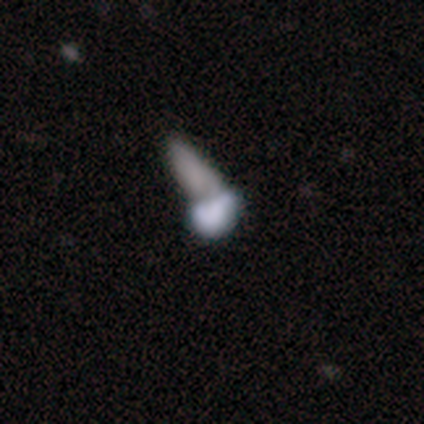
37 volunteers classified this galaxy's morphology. smooth-or-featured: smooth: 51% | featured or disk: 38% | star or artifact: 11%
  how-rounded: in between: 74% | round: 16% | cigar-shaped: 11%
  merging: merger: 64% | none: 18% | major disturbance: 12% | minor disturbance: 6%